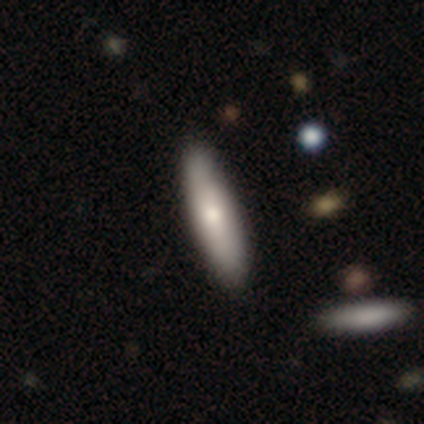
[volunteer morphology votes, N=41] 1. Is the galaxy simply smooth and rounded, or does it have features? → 63% smooth, 34% featured or disk, 2% star or artifact.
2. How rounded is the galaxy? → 58% cigar-shaped, 38% in between, 4% round.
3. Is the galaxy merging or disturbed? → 60% none, 8% merger, 5% minor disturbance, 2% major disturbance.